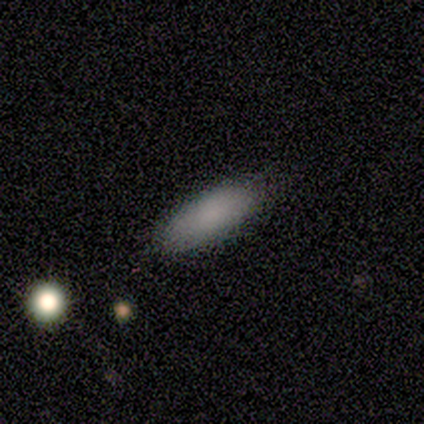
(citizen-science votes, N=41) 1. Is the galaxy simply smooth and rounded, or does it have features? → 83% smooth, 15% featured or disk, 2% star or artifact.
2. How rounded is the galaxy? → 65% in between, 35% cigar-shaped, 0% round.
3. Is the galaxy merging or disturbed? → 80% none, 2% minor disturbance, 0% major disturbance, 0% merger.